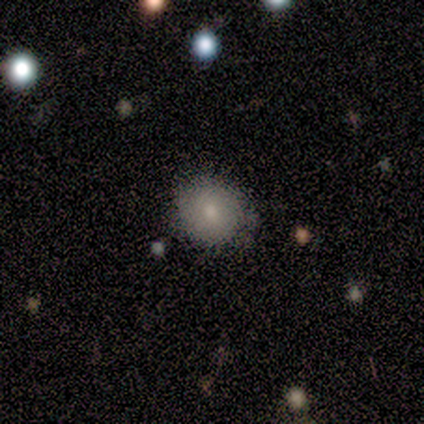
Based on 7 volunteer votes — Overall: smooth (86%). How rounded: round (100%). Merging: none (67%; minor disturbance 33%).